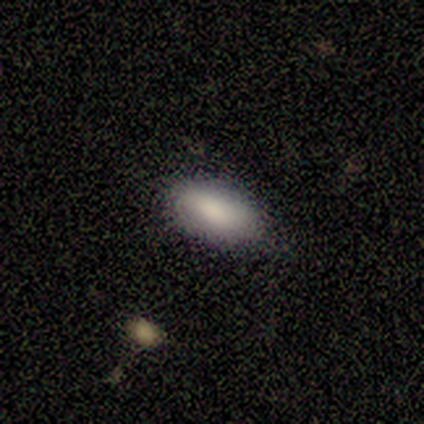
A smooth galaxy with no disk features (100%) that is in between round and cigar-shaped (100%).

Vote fractions:
- Smooth or featured? smooth: 100% / featured or disk: 0% / star or artifact: 0%
- How rounded? in between: 100% / round: 0% / cigar-shaped: 0%
- Merging? none: 80% / minor disturbance: 20% / major disturbance: 0% / merger: 0%